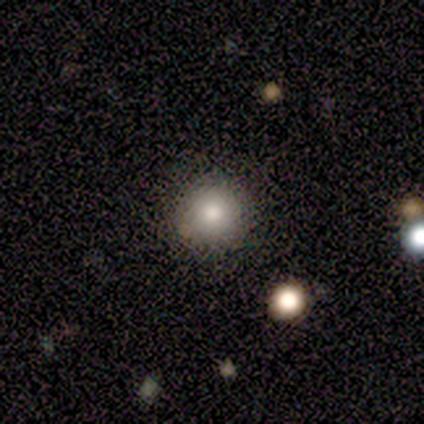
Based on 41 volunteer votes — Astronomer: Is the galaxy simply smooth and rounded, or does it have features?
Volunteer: smooth — 76%.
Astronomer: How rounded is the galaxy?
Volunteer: round — 100%.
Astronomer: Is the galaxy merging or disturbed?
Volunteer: none — 97%.